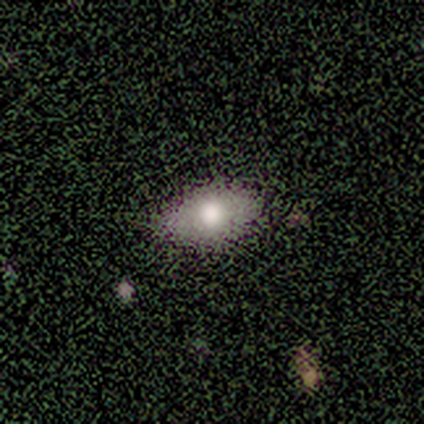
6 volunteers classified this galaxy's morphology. Overall: smooth (50%, tied with star or artifact). How rounded: in between (100%). Merging: none (100%).